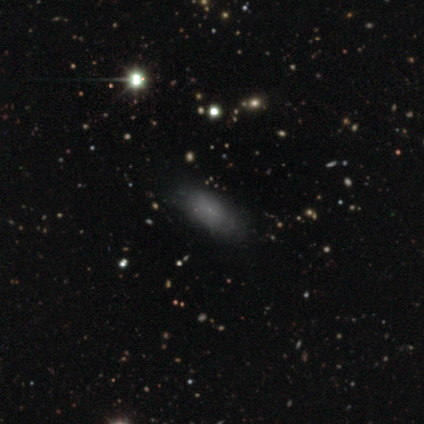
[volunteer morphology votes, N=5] type=smooth (60%); roundness=in between (100%); merging=none (100%).